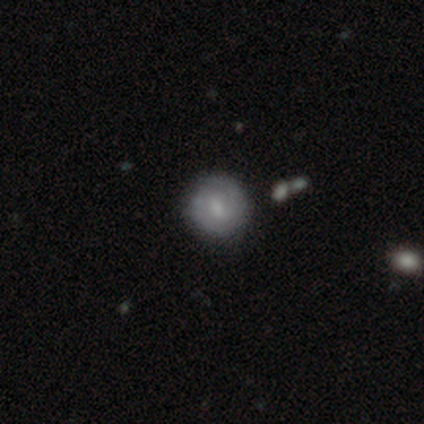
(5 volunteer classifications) Morphology: type=featured or disk (60%); edge-on=no (100%); bar=strong (67%); spiral arms=yes (100%); winding=tight (67%); arm count=2 (67%); bulge=moderate (67%); merging=none (80%).